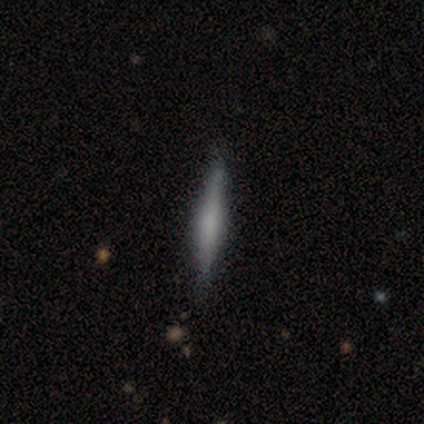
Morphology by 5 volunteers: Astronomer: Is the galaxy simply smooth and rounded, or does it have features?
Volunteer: smooth — 60%.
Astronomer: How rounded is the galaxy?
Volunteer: cigar-shaped — 100%.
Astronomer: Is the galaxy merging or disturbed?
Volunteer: none — 75%.